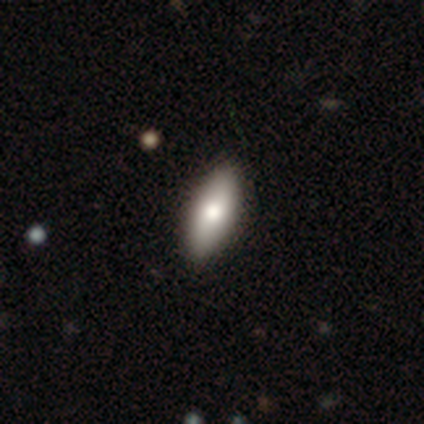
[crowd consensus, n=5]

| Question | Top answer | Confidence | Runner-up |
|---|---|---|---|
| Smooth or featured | smooth | 100% | — |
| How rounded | in between | 80% | cigar-shaped (20%) |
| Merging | none | 100% | — |